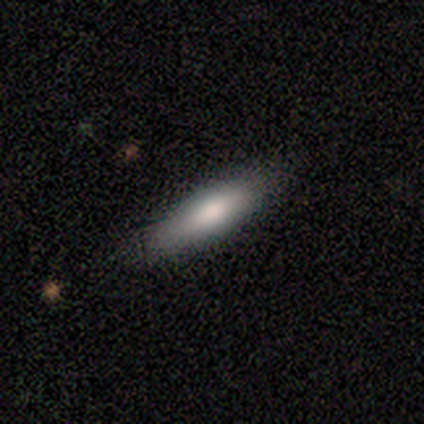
This is possibly a smooth galaxy (50%, tied with featured or disk). How rounded: clearly cigar-shaped (100%). Merging: likely none (75%).